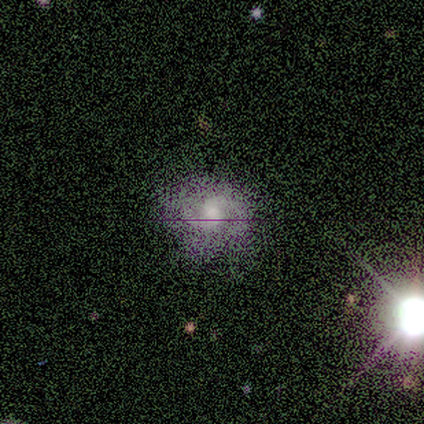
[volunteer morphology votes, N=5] Smooth or featured: featured or disk — 60% (smooth — 40%)
Edge-on disk: no — 100%
Bar: weak — 67% (strong — 33%)
Spiral arms: yes — 100%
Spiral winding: medium — 67% (loose — 33%)
Spiral arm count: 2 — 67% (can't tell — 33%)
Bulge size: small — 67% (moderate — 33%)
Merging: none — 100%